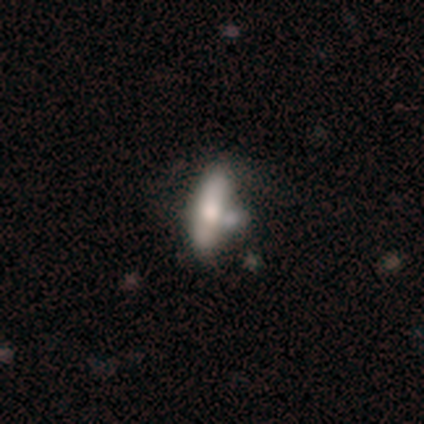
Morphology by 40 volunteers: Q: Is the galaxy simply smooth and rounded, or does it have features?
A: smooth — 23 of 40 (57%).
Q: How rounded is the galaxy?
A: in between — 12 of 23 (52%).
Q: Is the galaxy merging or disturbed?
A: none — 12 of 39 (31%).